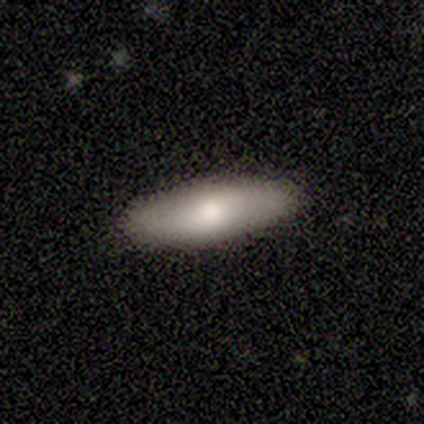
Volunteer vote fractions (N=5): Smooth or featured? 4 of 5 (80%) said smooth. How rounded? 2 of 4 (50%, tied with cigar-shaped) said in between. Merging? 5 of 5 (100%) said none.